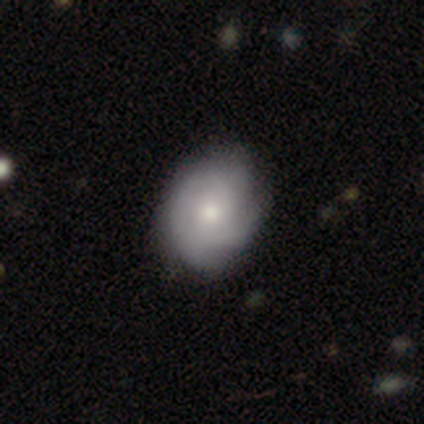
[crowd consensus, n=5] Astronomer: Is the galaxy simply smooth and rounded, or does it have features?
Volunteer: featured or disk — 80%.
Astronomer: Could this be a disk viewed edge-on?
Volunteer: no — 100%.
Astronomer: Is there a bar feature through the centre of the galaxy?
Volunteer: weak — 50%, tied with no at 50%.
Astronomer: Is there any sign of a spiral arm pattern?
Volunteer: yes — 75%.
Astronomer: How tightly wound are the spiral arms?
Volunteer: tight — 67%.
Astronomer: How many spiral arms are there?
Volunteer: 2 — 67%.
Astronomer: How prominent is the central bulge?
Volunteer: moderate — 50%.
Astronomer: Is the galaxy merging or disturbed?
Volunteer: none — 60% (runner-up: minor disturbance, 40%).